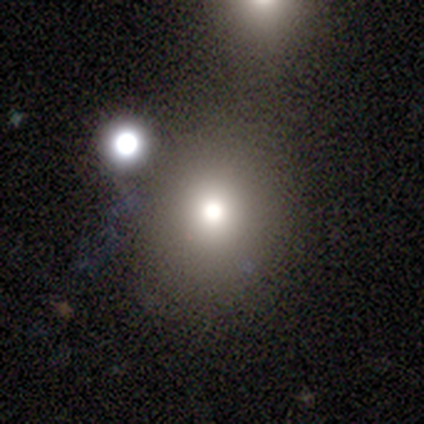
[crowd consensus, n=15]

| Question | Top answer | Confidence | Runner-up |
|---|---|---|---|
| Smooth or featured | smooth | 87% | featured or disk (7%) |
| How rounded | round | 92% | in between (8%) |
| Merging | none | 79% | minor disturbance (7%) |